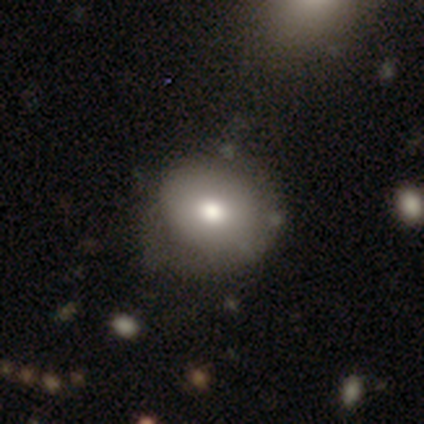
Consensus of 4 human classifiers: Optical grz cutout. It shows a smooth galaxy with no disk features (75%) that is round (100%). Merging: none (100%).